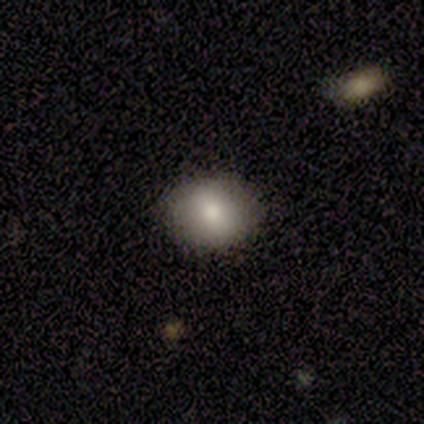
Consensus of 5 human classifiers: This is clearly a smooth galaxy (80%). How rounded: possibly round (50%, tied with in between). Merging: likely none (60%).